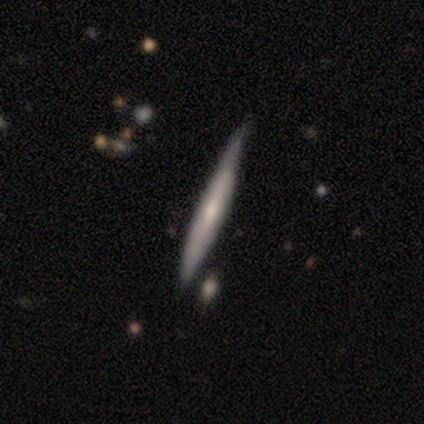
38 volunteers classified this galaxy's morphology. smooth_or_featured: featured or disk (p=0.63) [alt: smooth p=0.34]
disk_edge_on: yes (p=0.88) [alt: no p=0.12]
edge_on_bulge: none (p=0.76) [alt: rounded p=0.19]
merging: none (p=0.65) [alt: minor disturbance p=0.24]